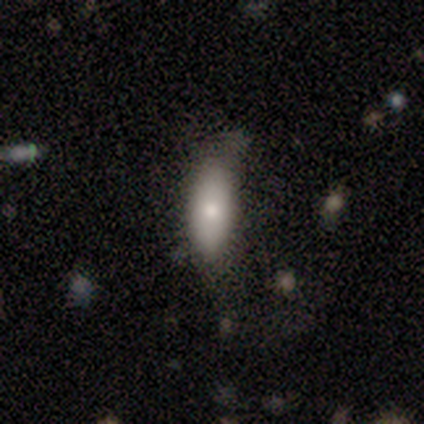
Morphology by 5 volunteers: Smooth or featured? smooth (80%)
How rounded? in between (100%)
Merging? none (60%)